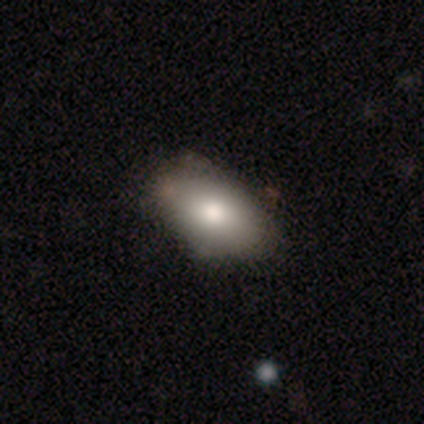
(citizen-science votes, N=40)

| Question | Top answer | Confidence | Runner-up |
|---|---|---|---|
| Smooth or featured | smooth | 80% | featured or disk (18%) |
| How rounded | in between | 97% | round (3%) |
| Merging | none | 44% | minor disturbance (26%) |